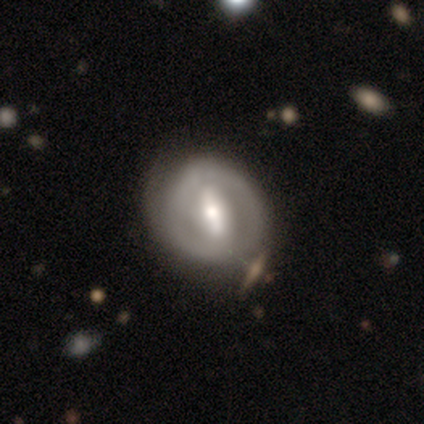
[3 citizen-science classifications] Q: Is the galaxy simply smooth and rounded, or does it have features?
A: featured or disk — 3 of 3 (100%).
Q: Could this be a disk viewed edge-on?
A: no — 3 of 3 (100%).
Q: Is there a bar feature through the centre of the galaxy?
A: strong — 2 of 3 (67%).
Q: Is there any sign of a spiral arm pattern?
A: yes — 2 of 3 (67%).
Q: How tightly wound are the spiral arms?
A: tight — 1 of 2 (50%, tied with medium).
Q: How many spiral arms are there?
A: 1 — 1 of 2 (50%, tied with 2).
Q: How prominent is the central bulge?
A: moderate — 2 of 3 (67%).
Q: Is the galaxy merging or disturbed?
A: none — 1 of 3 (33%, tied with minor disturbance and merger).